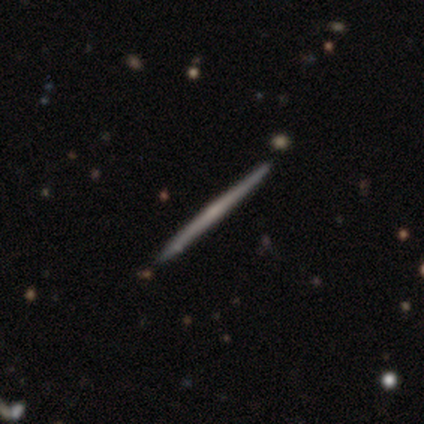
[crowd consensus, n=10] smooth_or_featured: featured or disk (p=0.70) [alt: smooth p=0.30]
disk_edge_on: yes (p=1.00)
edge_on_bulge: none (p=0.71) [alt: boxy p=0.14]
merging: none (p=0.80) [alt: minor disturbance p=0.10]